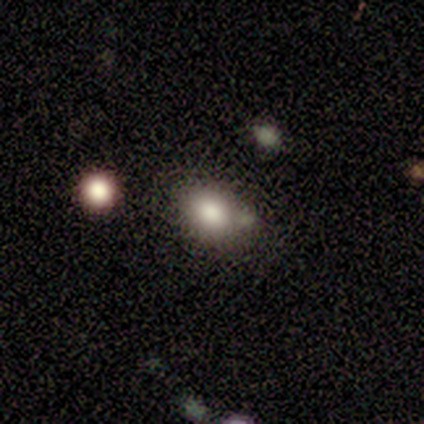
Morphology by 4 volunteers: Volunteers were most divided on "merging": minor disturbance: 50%, none: 25%, major disturbance: 25%, merger: 0%. More confident: smooth or featured — smooth (100%); how rounded — in between (75%).